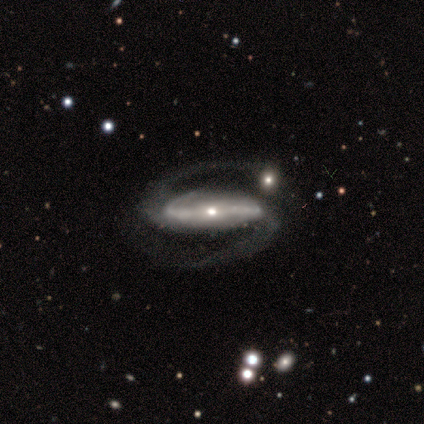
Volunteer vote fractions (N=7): smooth-or-featured: featured or disk: 100% | smooth: 0% | star or artifact: 0%
  disk-edge-on: no: 100% | yes: 0%
    bar: strong: 71% | weak: 29% | no: 0%
    has-spiral-arms: yes: 100% | no: 0%
      spiral-winding: medium: 57% | loose: 29% | tight: 14%
      spiral-arm-count: 2: 100% | 1: 0% | 3: 0% | 4: 0% | more than 4: 0% | can't tell: 0%
    bulge-size: small: 57% | moderate: 29% | large: 14% | dominant: 0% | none: 0%
  merging: none: 43% (tied) | minor disturbance: 43% (tied) | merger: 14% | major disturbance: 0%